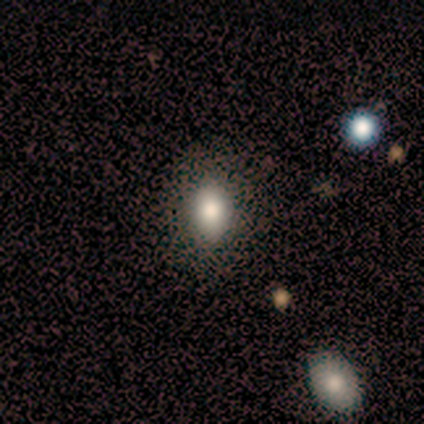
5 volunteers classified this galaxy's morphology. Overall: smooth (100%). How rounded: in between (100%). Merging: none (100%).